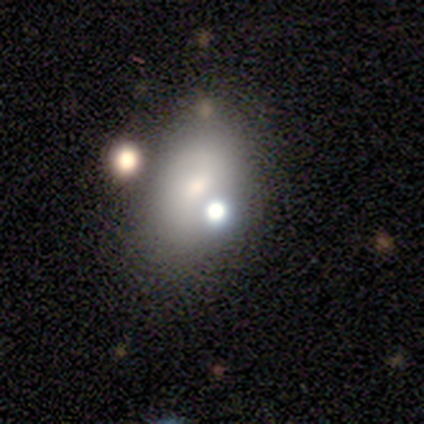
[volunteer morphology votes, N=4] Overall: smooth (100%). How rounded: in between (75%). Merging: none (75%).